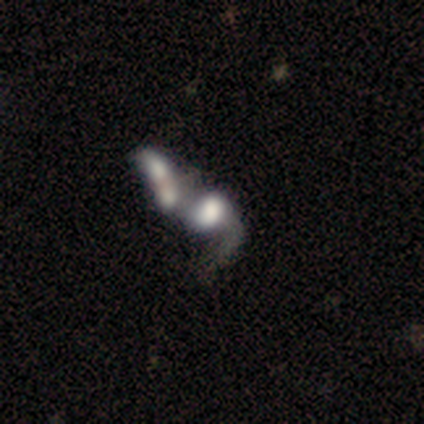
This appears to be a featured or disk galaxy (61%) with no bar (86%), no spiral arms (64%) and a large central bulge (45%). Merging: merger (88%).